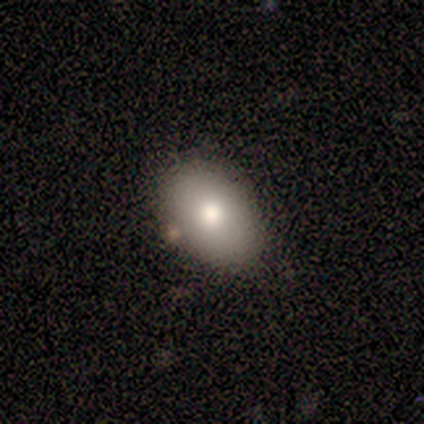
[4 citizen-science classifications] This appears to be a smooth galaxy with no disk features (75%) that is in between round and cigar-shaped (100%). Merging: none (100%).